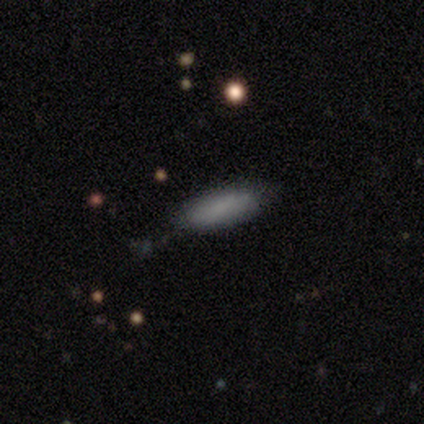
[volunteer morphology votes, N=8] Smooth or featured?
  - smooth: 88% *
  - featured or disk: 12%
  - star or artifact: 0%
How rounded?
  - in between: 57% *
  - cigar-shaped: 43%
  - round: 0%
Merging?
  - none: 88% *
  - minor disturbance: 12%
  - major disturbance: 0%
  - merger: 0%